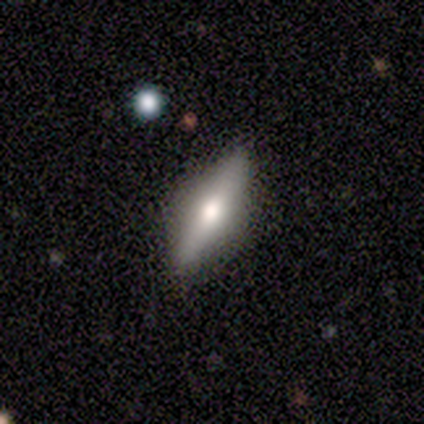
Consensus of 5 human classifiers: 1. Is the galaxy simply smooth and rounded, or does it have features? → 60% featured or disk, 40% smooth, 0% star or artifact.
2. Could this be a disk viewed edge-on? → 100% yes, 0% no.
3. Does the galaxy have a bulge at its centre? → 100% rounded, 0% boxy, 0% none.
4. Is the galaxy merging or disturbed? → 100% none, 0% minor disturbance, 0% major disturbance, 0% merger.